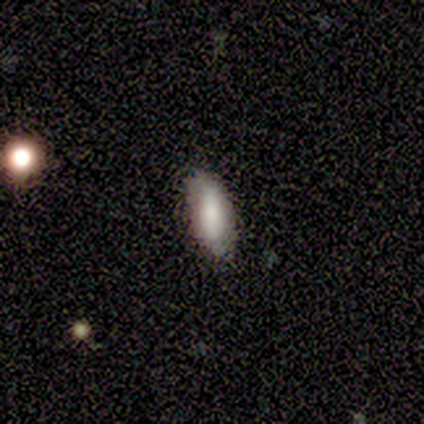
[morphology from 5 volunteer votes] Overall: smooth (60%; featured or disk 20%). How rounded: in between (67%; cigar-shaped 33%). Merging: none (50%, tied with minor disturbance).